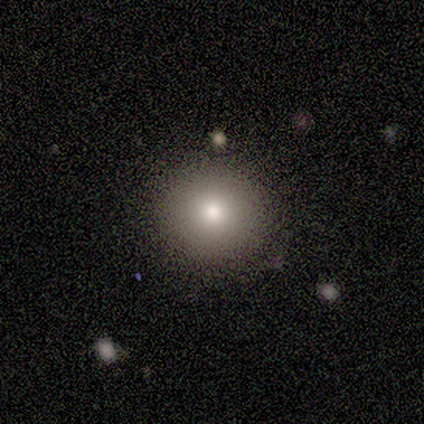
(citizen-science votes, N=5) Overall: smooth (100%). How rounded: round (100%). Merging: none (100%).